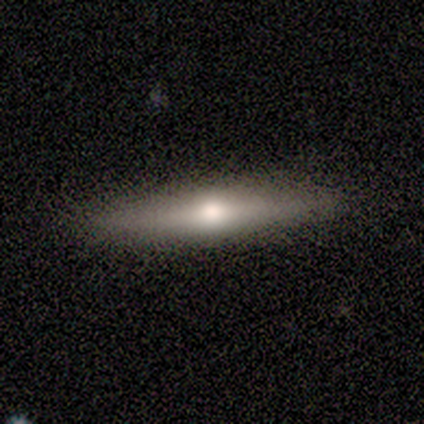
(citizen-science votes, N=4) Smooth or featured: smooth — 75% (featured or disk — 25%)
How rounded: cigar-shaped — 67% (in between — 33%)
Merging: none — 75% (minor disturbance — 25%)